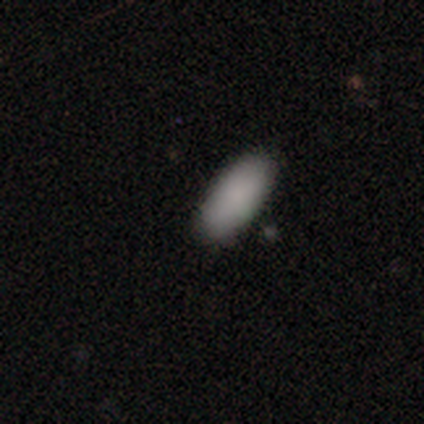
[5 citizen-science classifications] smooth_or_featured: smooth (p=0.80) [alt: star or artifact p=0.20]
how_rounded: in between (p=0.75) [alt: cigar-shaped p=0.25]
merging: none (p=0.75) [alt: merger p=0.25]